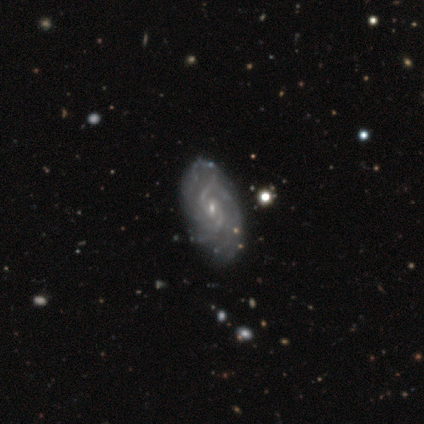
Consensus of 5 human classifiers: This appears to be a featured or disk galaxy (100%) with no bar (80%), 2 (60%) medium (60%) spiral arms (100%) and a small central bulge (100%). Merging: none (80%).